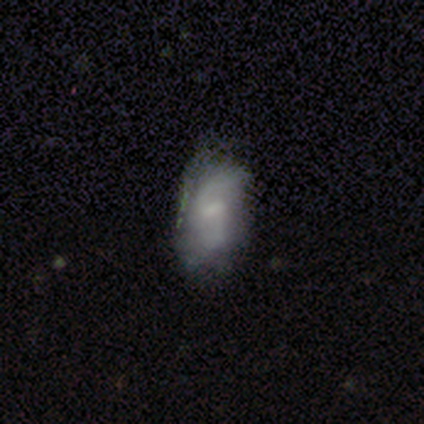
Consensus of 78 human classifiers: Smooth or featured? featured or disk (60%)
Edge-on disk? no (98%)
Bar? weak (70%)
Spiral arms? yes (85%)
Spiral winding? medium (44%)
Spiral arm count? 2 (87%)
Bulge size? none (50%)
Merging? none (34%)